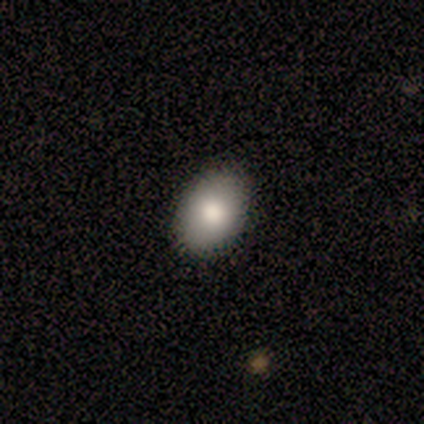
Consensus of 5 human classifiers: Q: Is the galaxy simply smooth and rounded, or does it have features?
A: smooth — 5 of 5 (100%).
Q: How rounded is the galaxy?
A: in between — 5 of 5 (100%).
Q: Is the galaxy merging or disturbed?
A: none — 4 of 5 (80%).